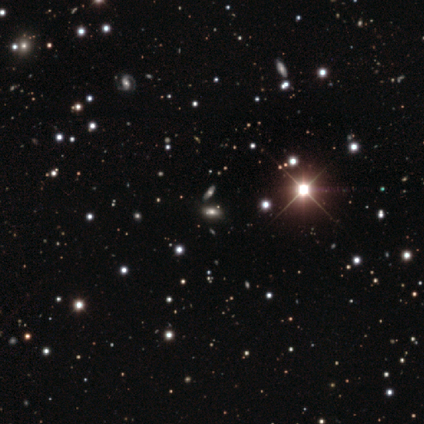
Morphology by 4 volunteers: smooth_or_featured: smooth (p=0.50) [tied with: star or artifact p=0.50]
how_rounded: round (p=0.50) [tied with: in between p=0.50]
merging: none (p=1.00)